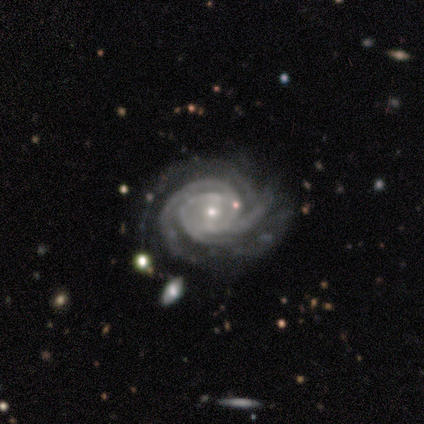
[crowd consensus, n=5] smooth-or-featured: featured or disk: 100% | smooth: 0% | star or artifact: 0%
  disk-edge-on: no: 100% | yes: 0%
    bar: weak: 60% | strong: 20% | no: 20%
    has-spiral-arms: yes: 100% | no: 0%
      spiral-winding: tight: 60% | medium: 40% | loose: 0%
      spiral-arm-count: 3: 60% | 4: 40% | 1: 0% | 2: 0% | more than 4: 0% | can't tell: 0%
    bulge-size: small: 100% | dominant: 0% | large: 0% | moderate: 0% | none: 0%
  merging: none: 100% | minor disturbance: 0% | major disturbance: 0% | merger: 0%